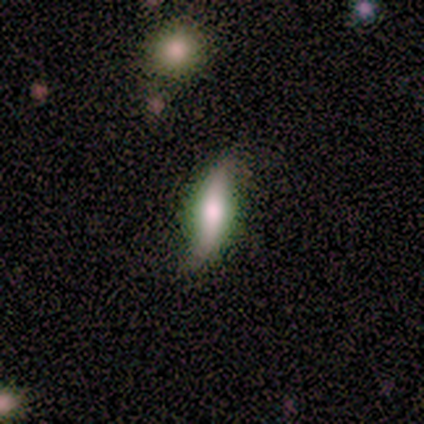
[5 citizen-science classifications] Volunteers were most divided on "bulge size": small: 67%, none: 33%, dominant: 0%, large: 0%, moderate: 0%. More confident: bar — no (100%); spiral arms — yes (100%); spiral winding — loose (100%); spiral arm count — 2 (100%); smooth or featured — featured or disk (80%); merging — none (80%); edge-on disk — no (75%).